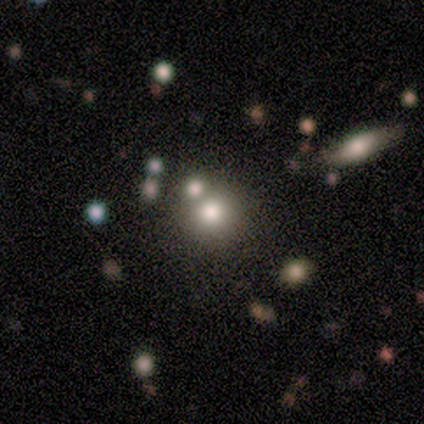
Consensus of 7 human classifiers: Smooth or featured: smooth — 57% (star or artifact — 43%)
How rounded: round — 100%
Merging: none — 100%